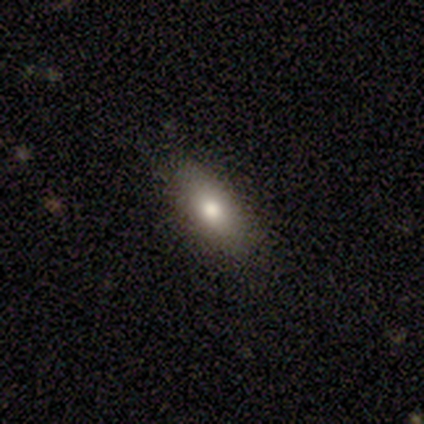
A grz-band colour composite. It shows a smooth galaxy with no disk features (75%) that is round (33%, tied with in between and cigar-shaped). Merging: none (100%).